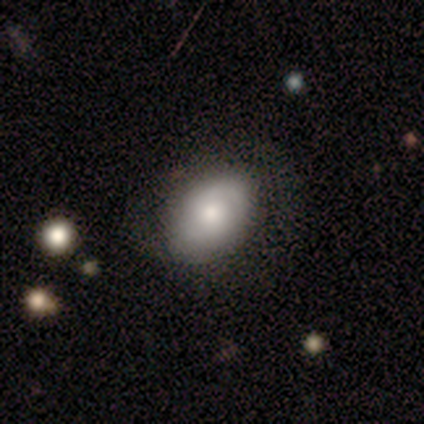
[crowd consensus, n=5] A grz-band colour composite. It shows a smooth galaxy with no disk features (80%) that is in between round and cigar-shaped (100%). Merging: none (80%).